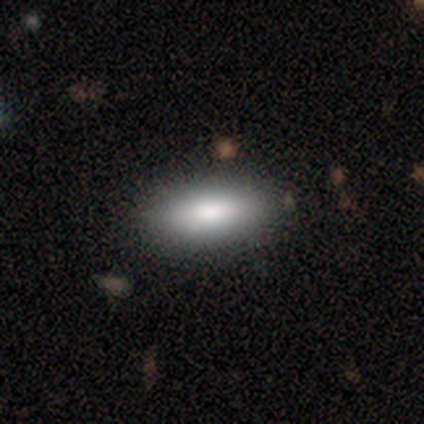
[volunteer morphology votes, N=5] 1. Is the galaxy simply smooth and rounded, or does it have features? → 80% smooth, 20% featured or disk, 0% star or artifact.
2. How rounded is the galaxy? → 100% in between, 0% round, 0% cigar-shaped.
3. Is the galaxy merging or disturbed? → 60% minor disturbance, 40% none, 0% major disturbance, 0% merger.